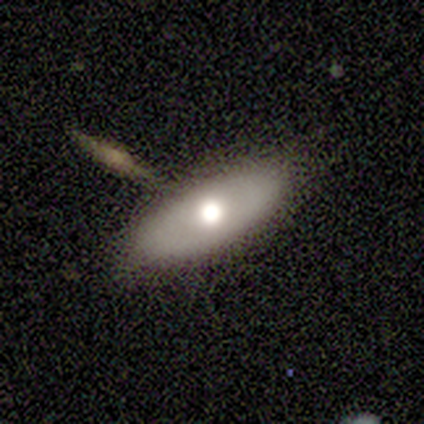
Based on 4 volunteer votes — Morphology: type=smooth (100%); roundness=in between (75%); merging=none (75%).